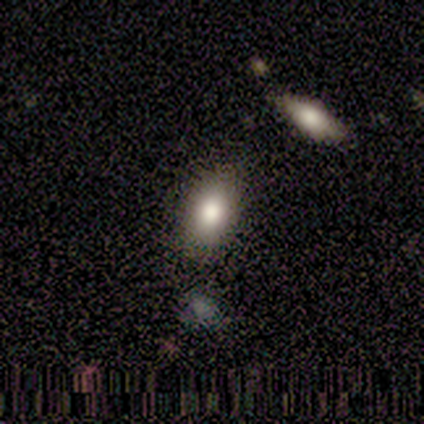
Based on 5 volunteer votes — Overall: smooth (100%). How rounded: in between (80%). Merging: none (80%).